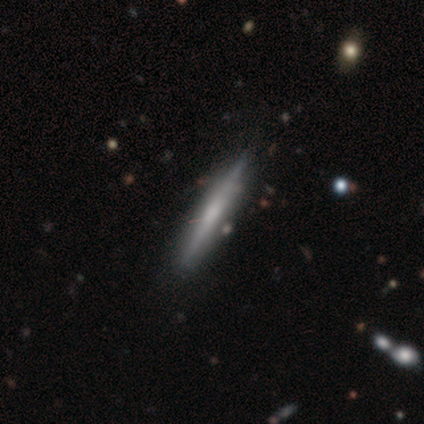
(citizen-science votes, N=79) Smooth or featured? 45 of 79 (57%) said featured or disk. Edge-on disk? 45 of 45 (100%) said yes. Edge-on bulge? 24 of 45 (53%) said none. Merging? 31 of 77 (40%) said none.